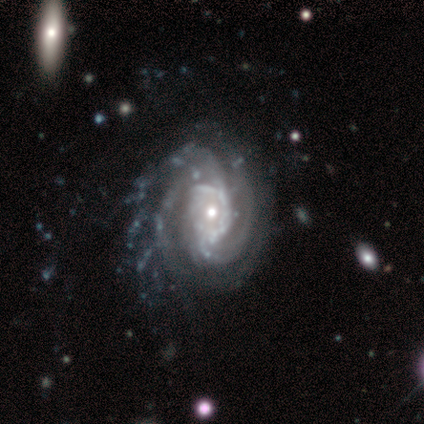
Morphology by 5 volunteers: Smooth or featured? featured or disk (100%)
Edge-on disk? no (100%)
Bar? no (100%)
Spiral arms? yes (100%)
Spiral winding? tight (40%, tied with medium)
Spiral arm count? 3 (60%)
Bulge size? small (60%)
Merging? minor disturbance (60%)